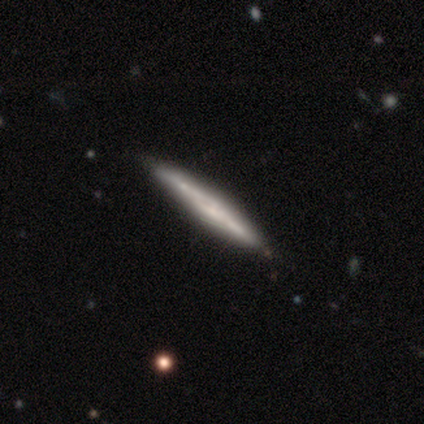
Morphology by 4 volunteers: This is likely a smooth galaxy (75%). How rounded: clearly cigar-shaped (100%). Merging: clearly none (100%).